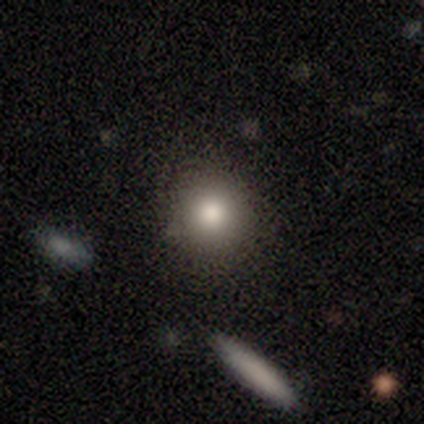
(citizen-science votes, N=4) Smooth or featured? 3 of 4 (75%) said smooth. How rounded? 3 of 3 (100%) said round. Merging? 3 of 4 (75%) said none.